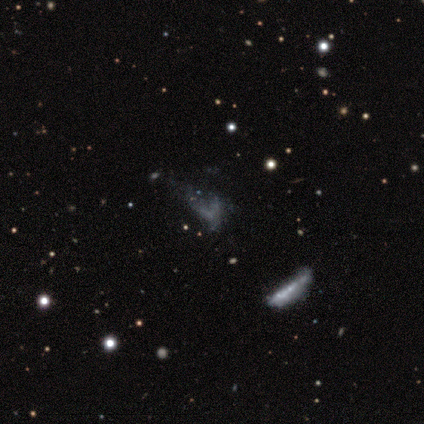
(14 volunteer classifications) smooth_or_featured: featured or disk (p=0.43) [alt: star or artifact p=0.36]
disk_edge_on: no (p=1.00)
bar: no (p=0.83) [alt: weak p=0.17]
has_spiral_arms: no (p=0.83) [alt: yes p=0.17]
bulge_size: none (p=1.00)
merging: none (p=0.44) [tied with: major disturbance p=0.44]